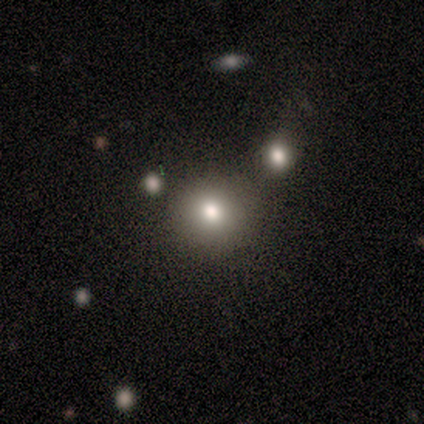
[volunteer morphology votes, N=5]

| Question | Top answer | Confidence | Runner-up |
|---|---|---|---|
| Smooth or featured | smooth | 100% | — |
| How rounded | round | 80% | in between (20%) |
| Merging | none | 40% | tied: minor disturbance (40%) |